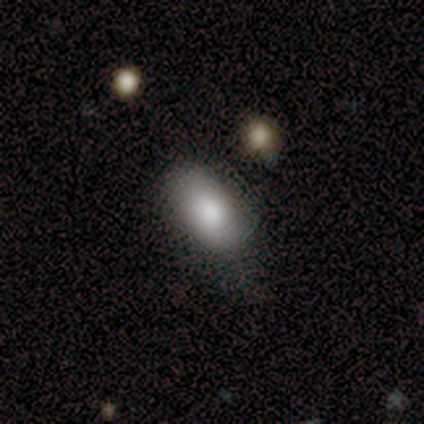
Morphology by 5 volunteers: smooth 100%, featured or disk 0%, star or artifact 0%. Down the decision tree: how rounded — in between (100%); merging — none (60%).